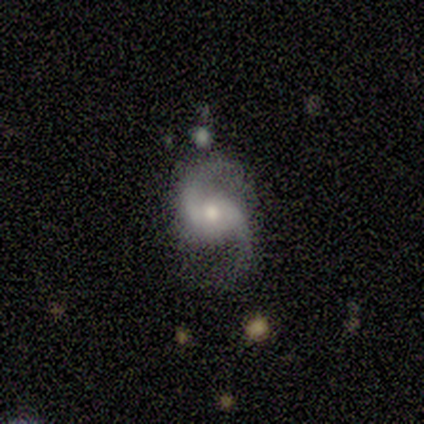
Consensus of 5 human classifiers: This appears to be a featured or disk galaxy (100%) with no bar (60%), 2 (100%) loose (60%) spiral arms (100%) and a large central bulge (40%, tied with moderate). Merging: none (80%).